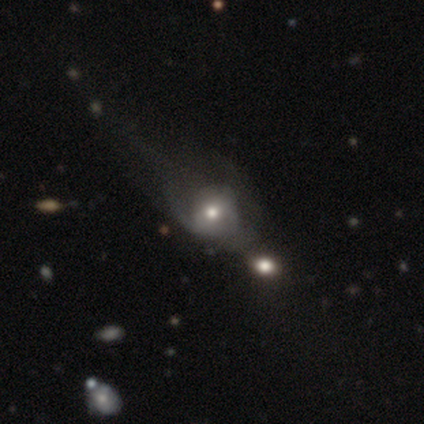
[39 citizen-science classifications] This appears to be a featured or disk galaxy (64%) with no bar (68%), no spiral arms (68%) and a moderate central bulge (68%). Merging: major disturbance (31%).